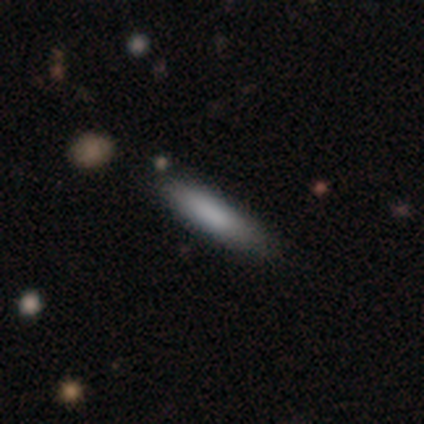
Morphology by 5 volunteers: This appears to be a smooth galaxy with no disk features (100%) that is cigar-shaped (80%). Merging: none (60%).